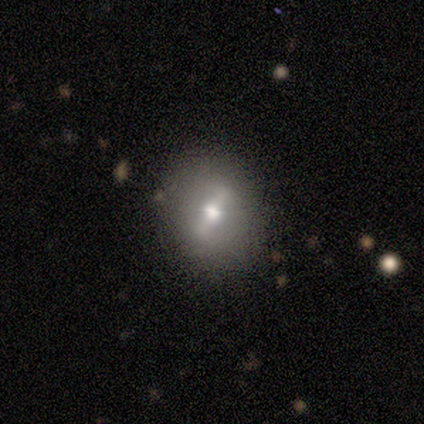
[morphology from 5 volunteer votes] A smooth galaxy with no disk features (80%) that is round (75%).

Vote fractions:
- Smooth or featured? smooth: 80% / featured or disk: 20% / star or artifact: 0%
- How rounded? round: 75% / in between: 25% / cigar-shaped: 0%
- Merging? none: 80% / minor disturbance: 20% / major disturbance: 0% / merger: 0%